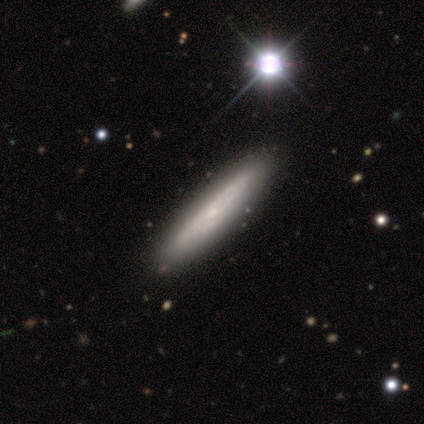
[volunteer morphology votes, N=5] type=featured or disk (80%); edge-on=no (75%); bar=no (100%); spiral arms=yes (67%); winding=tight (50%, tied with loose); arm count=can't tell (100%); bulge=small (100%); merging=none (100%).